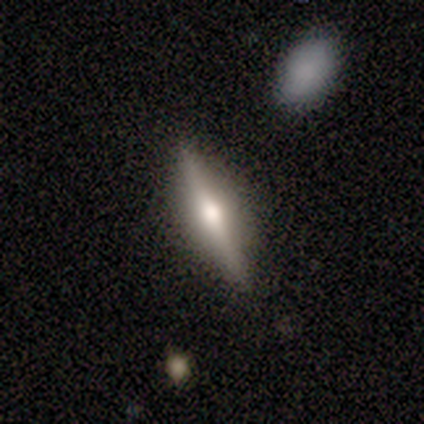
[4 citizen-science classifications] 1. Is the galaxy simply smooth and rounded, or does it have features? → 100% featured or disk, 0% smooth, 0% star or artifact.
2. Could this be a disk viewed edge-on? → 100% yes, 0% no.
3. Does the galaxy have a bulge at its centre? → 100% rounded, 0% boxy, 0% none.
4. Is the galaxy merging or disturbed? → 75% none, 25% minor disturbance, 0% major disturbance, 0% merger.